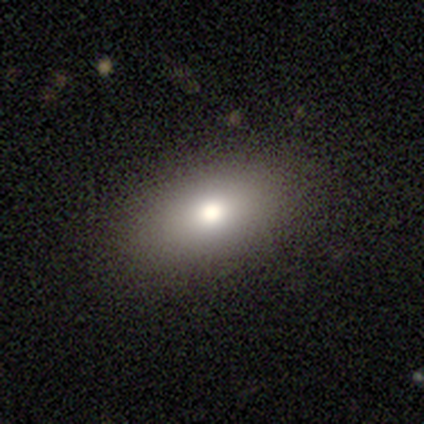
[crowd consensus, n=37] Volunteers were most divided on "how rounded": in between: 73%, round: 23%, cigar-shaped: 4%. More confident: merging — none (88%); smooth or featured — smooth (70%).